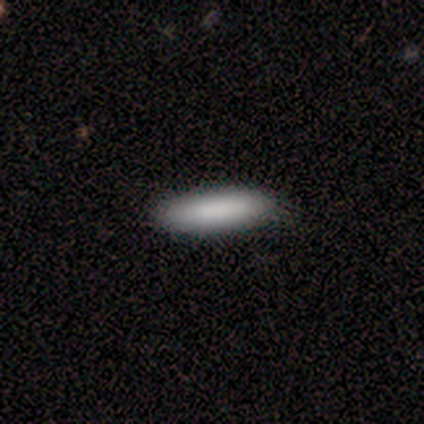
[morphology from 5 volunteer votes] This appears to be a smooth galaxy with no disk features (100%) that is cigar-shaped (60%). Merging: none (100%).